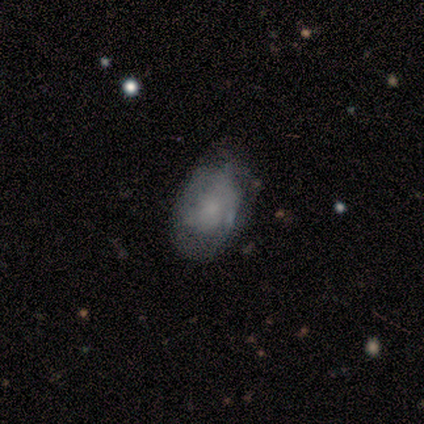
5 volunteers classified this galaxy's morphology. Overall: featured or disk (60%; smooth 40%). Edge-on disk: no (100%). Bar: no (100%). Spiral arms: no (67%; yes 33%). Bulge size: small (67%; none 33%). Merging: minor disturbance (60%; none 40%).